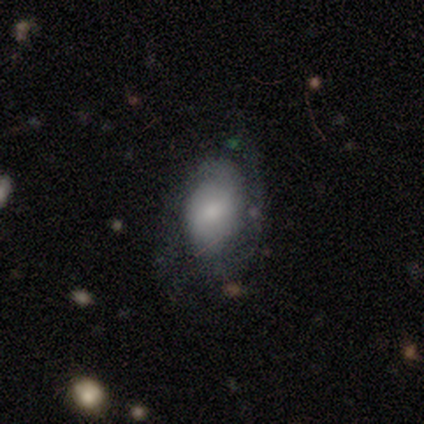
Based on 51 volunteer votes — This is possibly a featured or disk galaxy (49%). It is clearly not viewed edge-on (96%). Bar: possibly weak (50%, tied with no). Spiral arm pattern: likely yes (67%). Spiral arm count: clearly 2 (81%). Spiral winding: marginally tight (44%). Central bulge: possibly moderate (54%). Merging: possibly none (48%).